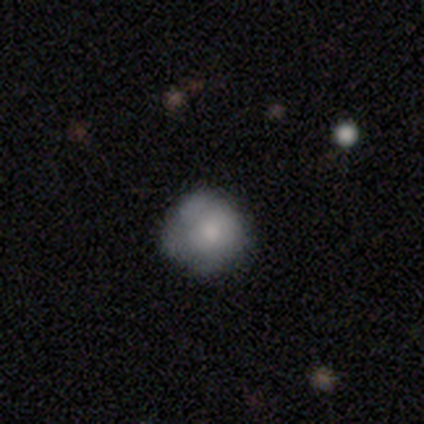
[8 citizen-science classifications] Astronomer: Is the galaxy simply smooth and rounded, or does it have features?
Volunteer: smooth — 88%.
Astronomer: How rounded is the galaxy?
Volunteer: round — 100%.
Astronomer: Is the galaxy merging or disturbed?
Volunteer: none — 75%.